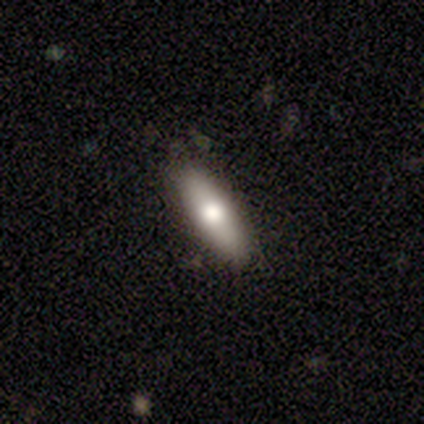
smooth 75%, featured or disk 20%, star or artifact 5%. Down the decision tree: how rounded — in between (67%); merging — none (87%).